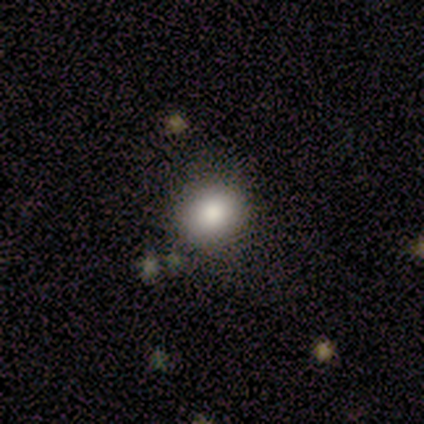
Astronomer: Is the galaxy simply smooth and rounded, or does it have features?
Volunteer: smooth — 86%.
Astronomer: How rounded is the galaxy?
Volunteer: round — 67%.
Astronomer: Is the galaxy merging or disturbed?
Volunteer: none — 100%.